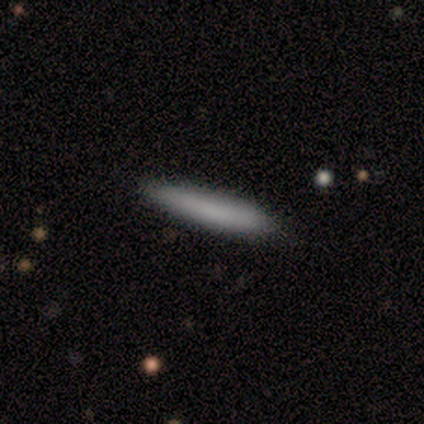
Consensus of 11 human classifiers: A smooth galaxy with no disk features (73%) that is cigar-shaped (100%). Merging: none (91%).